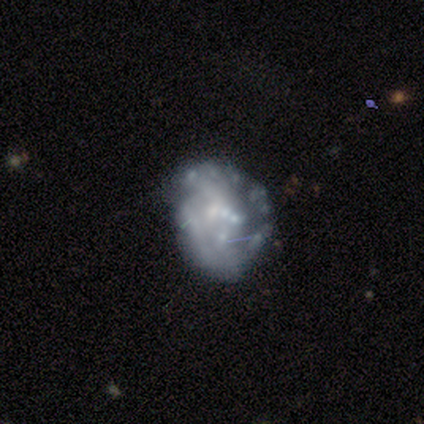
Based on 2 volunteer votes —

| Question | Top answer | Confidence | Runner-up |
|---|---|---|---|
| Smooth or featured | featured or disk | 100% | — |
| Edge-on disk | no | 100% | — |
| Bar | weak | 50% | tied: no (50%) |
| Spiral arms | yes | 50% | tied: no (50%) |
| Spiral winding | loose | 100% | — |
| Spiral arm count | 2 | 100% | — |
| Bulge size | small | 100% | — |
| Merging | none | 50% | tied: minor disturbance (50%) |